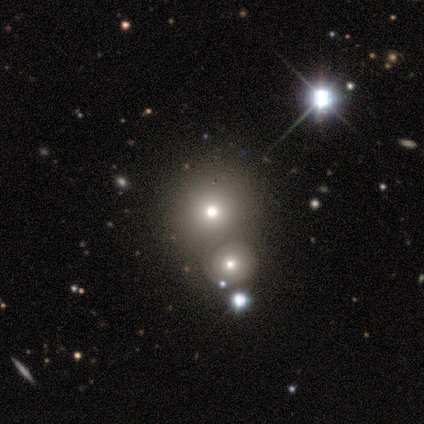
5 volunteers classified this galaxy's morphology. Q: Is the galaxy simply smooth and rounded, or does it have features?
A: smooth — 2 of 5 (40%, tied with star or artifact).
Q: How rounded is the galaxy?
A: round — 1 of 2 (50%, tied with in between).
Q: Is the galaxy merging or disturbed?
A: merger — 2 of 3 (67%).